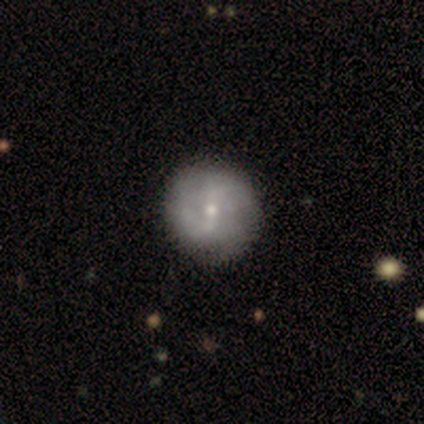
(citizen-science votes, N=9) Smooth or featured? 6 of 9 (67%) said featured or disk. Edge-on disk? 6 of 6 (100%) said no. Bar? 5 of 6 (83%) said weak. Spiral arms? 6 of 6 (100%) said yes. Spiral winding? 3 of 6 (50%) said medium. Spiral arm count? 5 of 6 (83%) said 2. Bulge size? 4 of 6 (67%) said small. Merging? 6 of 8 (75%) said none.